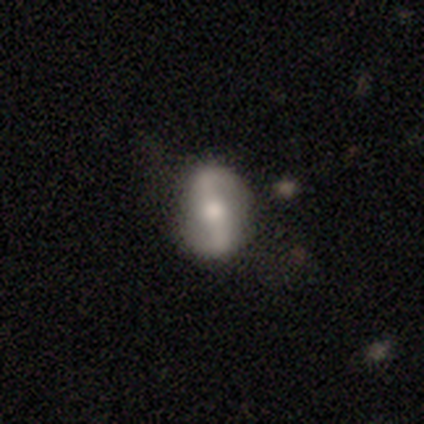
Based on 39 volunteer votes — smooth_or_featured: featured or disk (p=0.74) [alt: smooth p=0.15]
disk_edge_on: no (p=1.00)
bar: strong (p=0.45) [alt: weak p=0.34]
has_spiral_arms: yes (p=0.83) [alt: no p=0.17]
spiral_winding: loose (p=0.62) [alt: medium p=0.25]
spiral_arm_count: 2 (p=1.00)
bulge_size: moderate (p=0.59) [alt: large p=0.24]
merging: none (p=0.54) [alt: minor disturbance p=0.34]